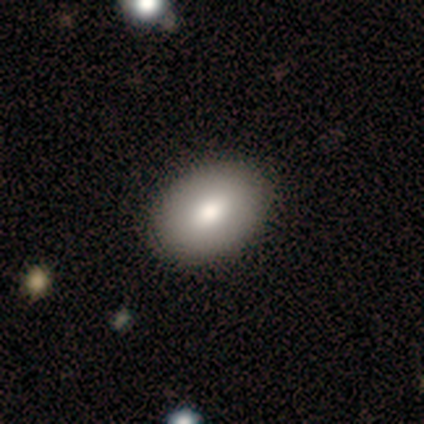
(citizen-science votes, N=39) A smooth galaxy with no disk features (79%) that is in between round and cigar-shaped (77%). Merging: none (65%).